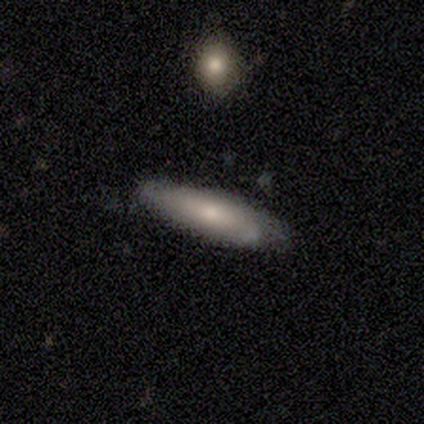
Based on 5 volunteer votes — smooth_or_featured: smooth (p=0.60) [alt: featured or disk p=0.40]
how_rounded: in between (p=0.67) [alt: cigar-shaped p=0.33]
merging: none (p=0.80) [alt: merger p=0.20]